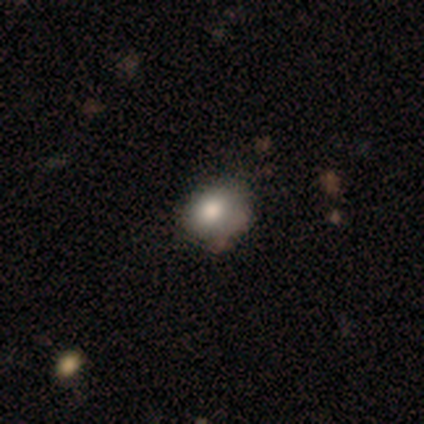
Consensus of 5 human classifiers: smooth-or-featured: smooth: 80% | featured or disk: 20% | star or artifact: 0%
  how-rounded: round: 50% (tied) | in between: 50% (tied) | cigar-shaped: 0%
  merging: none: 60% | major disturbance: 20% | merger: 20% | minor disturbance: 0%